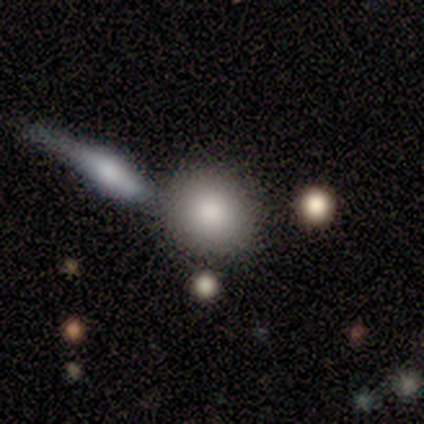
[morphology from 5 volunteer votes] smooth 80%, featured or disk 20%, star or artifact 0%. Down the decision tree: how rounded — round (100%); merging — none (80%).